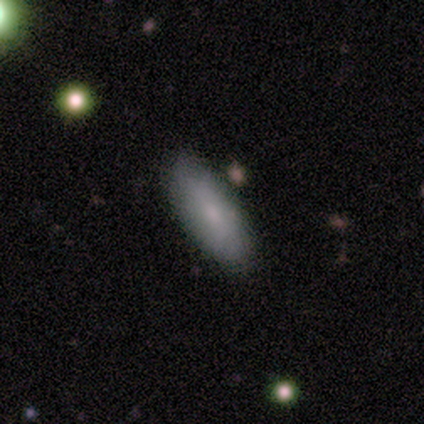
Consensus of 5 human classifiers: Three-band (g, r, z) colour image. It shows a smooth galaxy with no disk features (80%) that is in between round and cigar-shaped (50%, tied with cigar-shaped). Merging: none (75%).